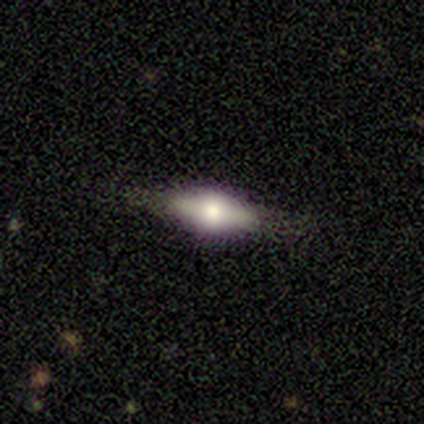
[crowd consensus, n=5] Smooth or featured?
  - featured or disk: 80% *
  - smooth: 20%
  - star or artifact: 0%
Edge-on disk?
  - yes: 100% *
  - no: 0%
Edge-on bulge?
  - rounded: 100% *
  - boxy: 0%
  - none: 0%
Merging?
  - minor disturbance: 60% *
  - none: 20%
  - major disturbance: 20%
  - merger: 0%